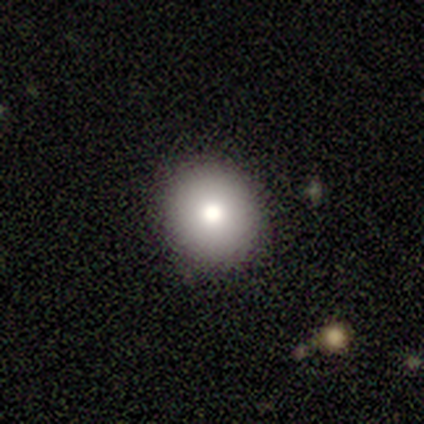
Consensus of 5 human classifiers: smooth_or_featured: smooth (p=0.80) [alt: featured or disk p=0.20]
how_rounded: round (p=1.00)
merging: none (p=1.00)